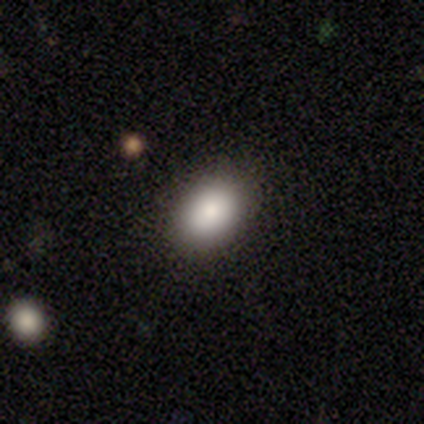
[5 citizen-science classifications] Smooth or featured? 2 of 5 (40%, tied with star or artifact) said smooth. How rounded? 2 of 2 (100%) said in between. Merging? 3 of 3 (100%) said none.